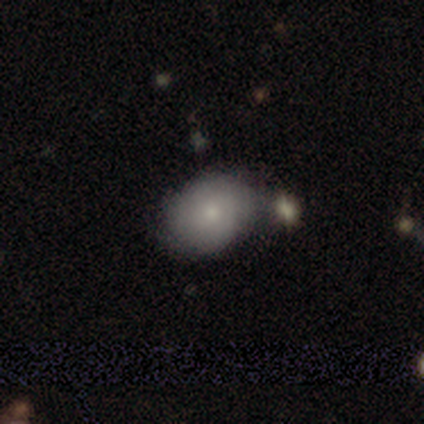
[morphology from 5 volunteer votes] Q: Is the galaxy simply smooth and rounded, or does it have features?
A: smooth — 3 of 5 (60%).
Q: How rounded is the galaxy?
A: in between — 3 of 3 (100%).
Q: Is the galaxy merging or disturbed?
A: none — 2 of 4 (50%).